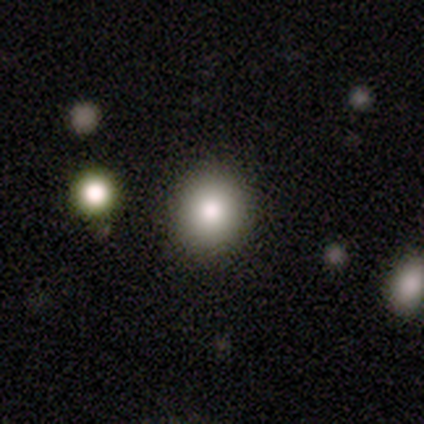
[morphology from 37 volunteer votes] Smooth or featured?
  - smooth: 81% *
  - featured or disk: 14%
  - star or artifact: 5%
How rounded?
  - round: 87% *
  - in between: 13%
  - cigar-shaped: 0%
Merging?
  - none: 91% *
  - merger: 6%
  - minor disturbance: 3%
  - major disturbance: 0%